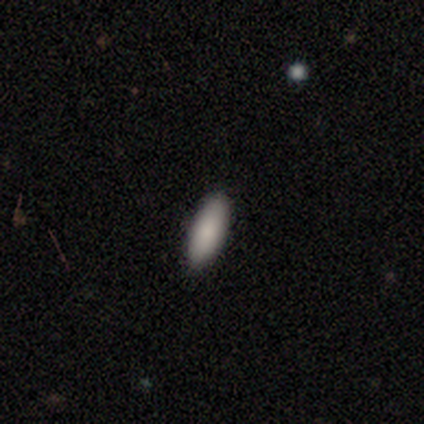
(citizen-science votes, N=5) Overall: smooth (100%). How rounded: in between (60%; cigar-shaped 40%). Merging: none (100%).